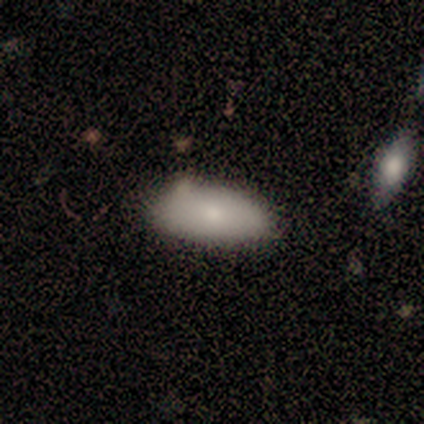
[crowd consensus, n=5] Q: Smooth or featured?
A: smooth (100%)
Q: How rounded?
A: in between (80%); runner-up: cigar-shaped (20%)
Q: Merging?
A: none (100%)